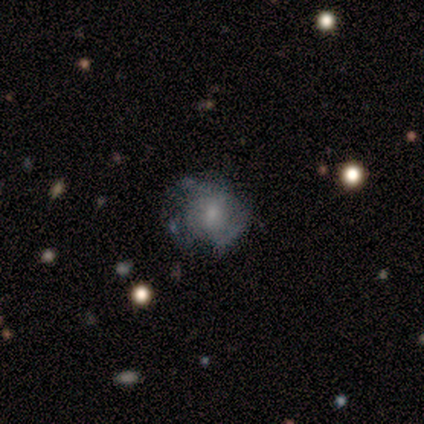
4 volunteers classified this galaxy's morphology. Volunteers were most divided on "bar": weak: 67%, no: 33%, strong: 0%. More confident: edge-on disk — no (100%); bulge size — small (100%); smooth or featured — featured or disk (75%); merging — minor disturbance (75%); spiral arms — no (67%).